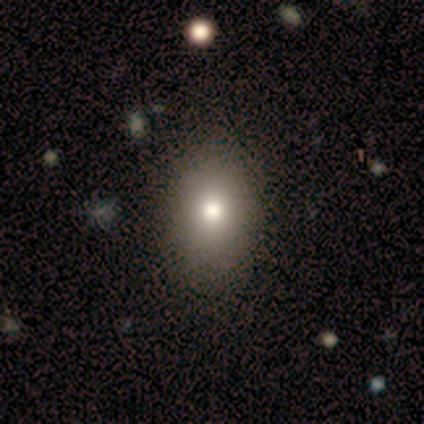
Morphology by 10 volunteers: Smooth or featured?
  - smooth: 80% *
  - featured or disk: 10%
  - star or artifact: 10%
How rounded?
  - in between: 62% *
  - round: 25%
  - cigar-shaped: 12%
Merging?
  - none: 78% *
  - minor disturbance: 22%
  - major disturbance: 0%
  - merger: 0%